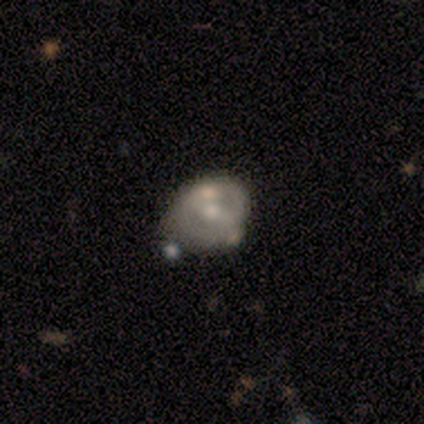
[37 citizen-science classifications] A featured or disk galaxy (59%) with no bar (45%), 2 (45%, tied with can't tell) tight (36%, tied with loose) spiral arms (50%, tied with no) and a moderate central bulge (68%).

Vote fractions:
- Smooth or featured? featured or disk: 59% / smooth: 24% / star or artifact: 16%
- Edge-on disk? no: 100% / yes: 0%
- Bar? no: 45% / weak: 32% / strong: 23%
- Spiral arms? yes: 50% (tied) / no: 50% (tied)
- Spiral winding? tight: 36% (tied) / loose: 36% (tied) / medium: 27%
- Spiral arm count? 2: 45% (tied) / can't tell: 45% (tied) / 1: 9% / 3: 0% / 4: 0% / more than 4: 0%
- Bulge size? moderate: 68% / small: 27% / large: 5% / dominant: 0% / none: 0%
- Merging? none: 55% / minor disturbance: 19% / major disturbance: 13% / merger: 13%